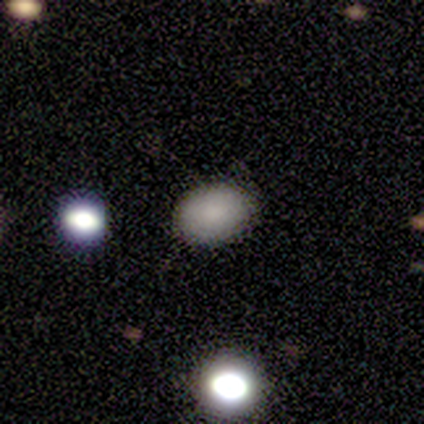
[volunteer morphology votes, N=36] A smooth galaxy with no disk features (94%) that is in between round and cigar-shaped (79%).

Vote fractions:
- Smooth or featured? smooth: 94% / star or artifact: 6% / featured or disk: 0%
- How rounded? in between: 79% / round: 21% / cigar-shaped: 0%
- Merging? none: 85% / minor disturbance: 9% / major disturbance: 3% / merger: 3%